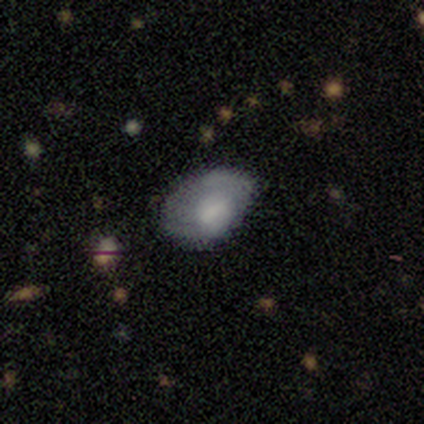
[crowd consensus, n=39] Overall: smooth (64%; featured or disk 28%). How rounded: in between (92%). Merging: minor disturbance (50%; none 36%).